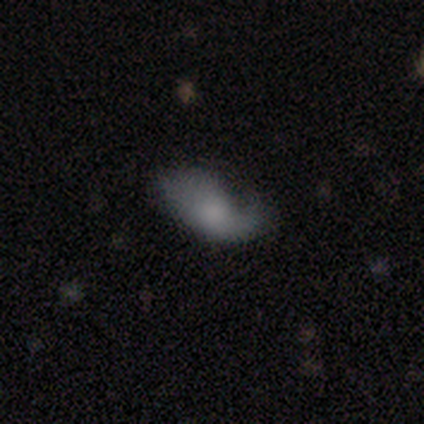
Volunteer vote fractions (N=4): Smooth or featured? smooth (100%)
How rounded? in between (100%)
Merging? none (50%)